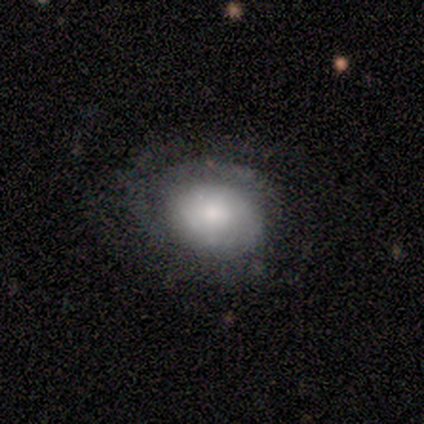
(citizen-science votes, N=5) Overall: smooth (60%; featured or disk 40%). How rounded: round (67%; in between 33%). Merging: none (80%).